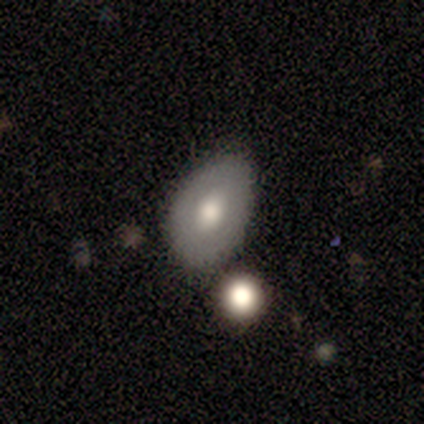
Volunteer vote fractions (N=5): Volunteers were most divided on "smooth or featured": smooth: 60%, featured or disk: 40%, star or artifact: 0%. More confident: how rounded — in between (67%); merging — none (60%).